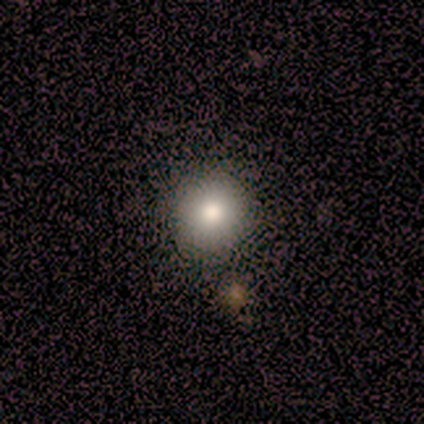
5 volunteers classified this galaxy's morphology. A smooth galaxy with no disk features (100%) that is round (80%).

Vote fractions:
- Smooth or featured? smooth: 100% / featured or disk: 0% / star or artifact: 0%
- How rounded? round: 80% / in between: 20% / cigar-shaped: 0%
- Merging? none: 100% / minor disturbance: 0% / major disturbance: 0% / merger: 0%